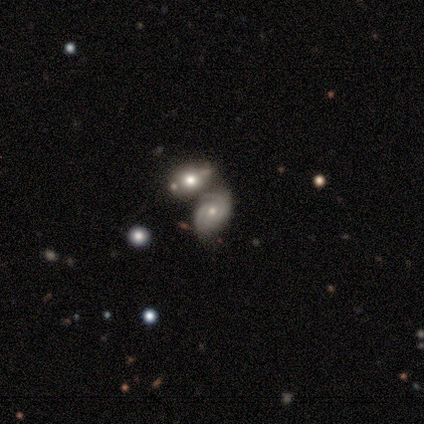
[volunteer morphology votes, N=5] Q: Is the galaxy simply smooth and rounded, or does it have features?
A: featured or disk — 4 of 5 (80%).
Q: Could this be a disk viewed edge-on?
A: no — 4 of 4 (100%).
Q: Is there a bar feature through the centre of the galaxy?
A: no — 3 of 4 (75%).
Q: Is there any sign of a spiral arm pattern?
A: yes — 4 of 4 (100%).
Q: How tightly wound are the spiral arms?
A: tight — 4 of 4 (100%).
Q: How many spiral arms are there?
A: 2 — 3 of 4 (75%).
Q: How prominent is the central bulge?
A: moderate — 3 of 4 (75%).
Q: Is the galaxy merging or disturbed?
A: none — 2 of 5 (40%, tied with merger).